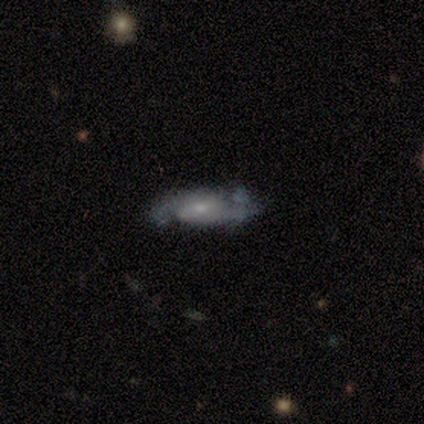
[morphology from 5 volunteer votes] Overall: featured or disk (100%). Edge-on disk: no (80%). Bar: weak (50%; strong 25%). Spiral arms: yes (100%). Spiral arm count: 2 (100%). Spiral winding: medium (75%). Bulge size: small (75%). Merging: none (80%).